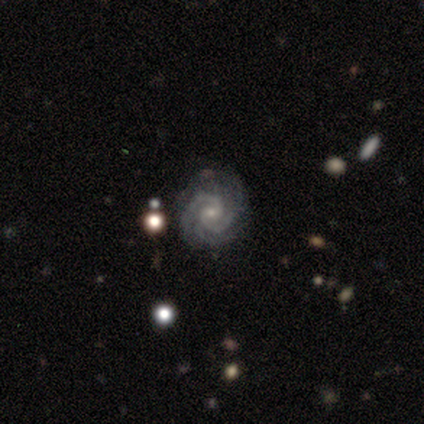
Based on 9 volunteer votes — This is clearly a featured or disk galaxy (89%). It is clearly not viewed edge-on (100%). Bar: likely no (62%). Spiral arm pattern: clearly yes (100%). Spiral arm count: marginally 3 (38%, tied with 4). Spiral winding: clearly tight (88%). Central bulge: clearly small (100%). Merging: likely none (75%).